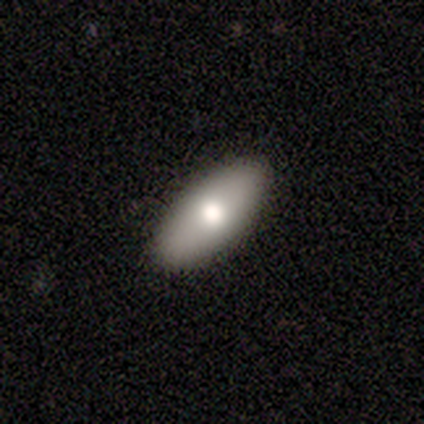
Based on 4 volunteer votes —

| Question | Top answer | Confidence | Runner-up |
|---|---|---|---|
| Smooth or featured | smooth | 75% | featured or disk (25%) |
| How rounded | in between | 100% | — |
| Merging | none | 100% | — |